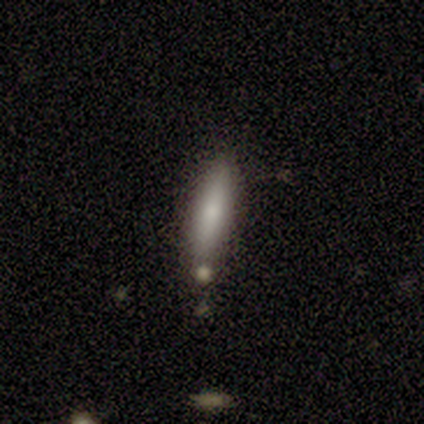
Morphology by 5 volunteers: Volunteers were most divided on "merging" (2-way tie): none: 40%, merger: 40%, minor disturbance: 20%, major disturbance: 0%. More confident: how rounded — cigar-shaped (100%); smooth or featured — smooth (80%).